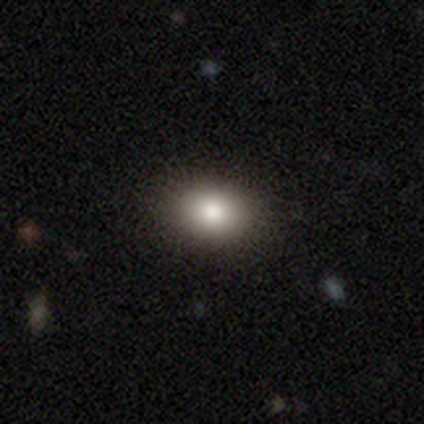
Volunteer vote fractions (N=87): Smooth or featured?
  - smooth: 84% *
  - star or artifact: 10%
  - featured or disk: 6%
How rounded?
  - in between: 77% *
  - round: 23%
  - cigar-shaped: 0%
Merging?
  - none: 91% *
  - minor disturbance: 6%
  - major disturbance: 1%
  - merger: 1%